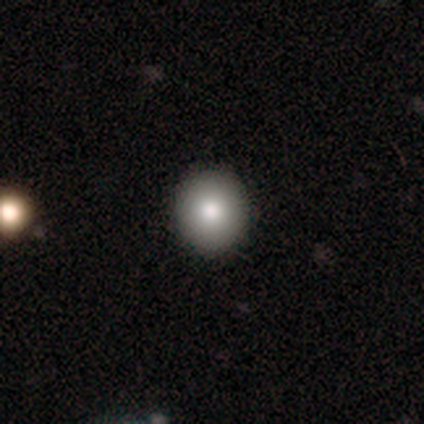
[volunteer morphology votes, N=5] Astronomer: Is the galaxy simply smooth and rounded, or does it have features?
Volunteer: smooth — 100%.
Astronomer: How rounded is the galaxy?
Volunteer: round — 100%.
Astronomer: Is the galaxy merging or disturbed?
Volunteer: none — 100%.